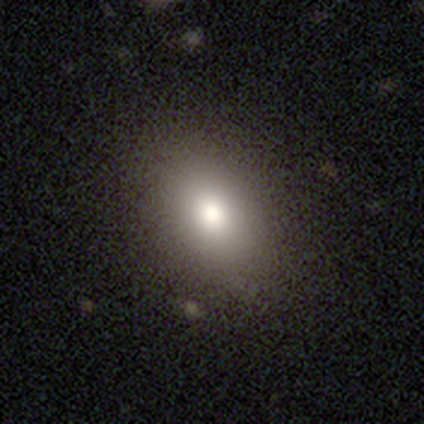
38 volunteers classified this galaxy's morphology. smooth 87%, featured or disk 8%, star or artifact 5%. Down the decision tree: how rounded — in between (91%); merging — none (94%).